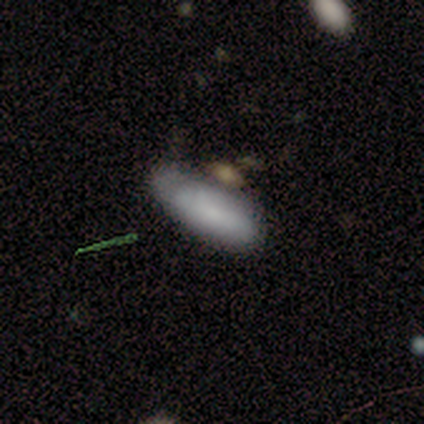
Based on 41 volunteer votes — Smooth or featured? 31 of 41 (76%) said smooth. How rounded? 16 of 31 (52%) said in between. Merging? 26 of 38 (68%) said none.